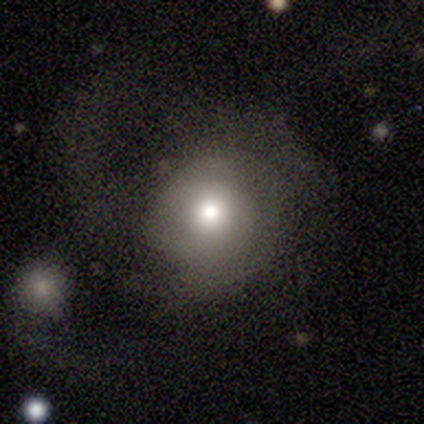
This is possibly a smooth galaxy (57%). How rounded: clearly round (87%). Merging: marginally none (34%, tied with major disturbance).